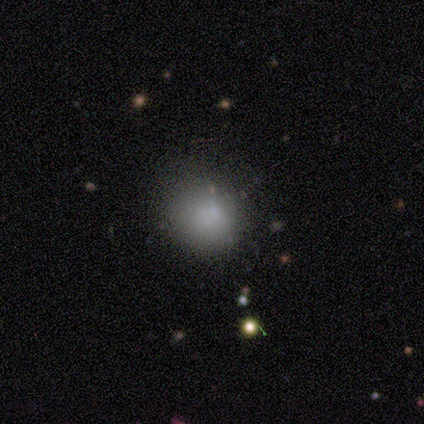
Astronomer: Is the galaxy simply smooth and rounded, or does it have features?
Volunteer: smooth — 79%.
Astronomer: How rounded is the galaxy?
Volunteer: round — 91%.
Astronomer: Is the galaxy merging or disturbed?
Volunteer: none — 58%.